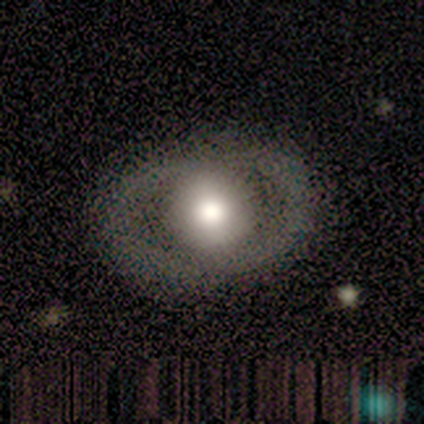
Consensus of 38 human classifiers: smooth-or-featured: featured or disk: 53% | smooth: 37% | star or artifact: 11%
  disk-edge-on: no: 85% | yes: 15%
    bar: no: 88% | strong: 12% | weak: 0%
    has-spiral-arms: no: 88% | yes: 12%
    bulge-size: large: 59% | moderate: 35% | dominant: 6% | small: 0% | none: 0%
  merging: none: 76% | minor disturbance: 12% | major disturbance: 12% | merger: 0%